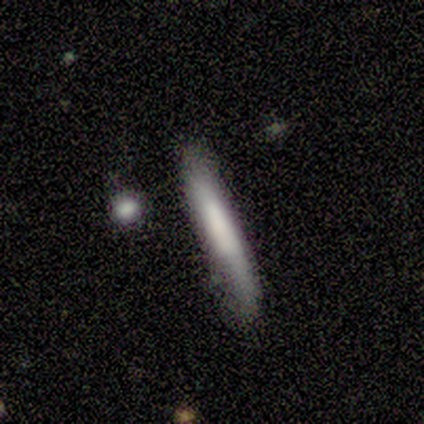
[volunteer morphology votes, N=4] smooth_or_featured: smooth (p=0.50) [tied with: featured or disk p=0.50]
how_rounded: cigar-shaped (p=1.00)
merging: none (p=0.75) [alt: minor disturbance p=0.25]